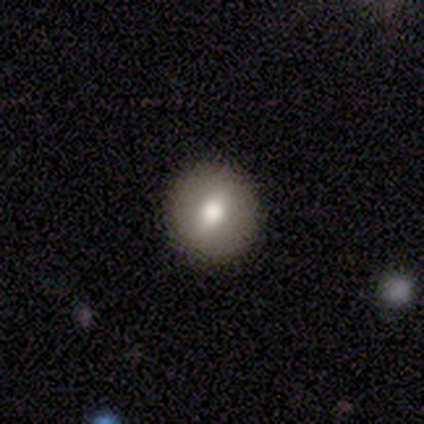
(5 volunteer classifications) featured or disk 40% (tied), star or artifact 40% (tied), smooth 20%. Down the decision tree: edge-on disk — no (100%); bar — weak (50%, tied with no); spiral arms — no (100%); bulge size — moderate (100%); merging — none (100%).